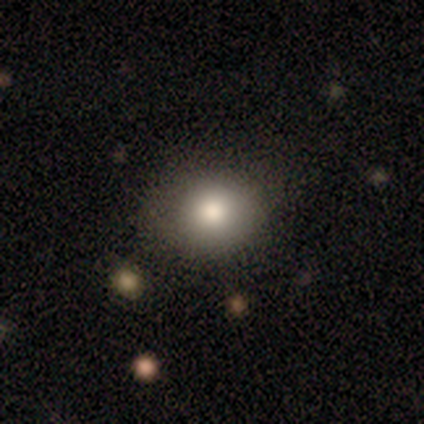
This is clearly a smooth galaxy (100%). How rounded: clearly round (100%). Merging: clearly none (100%).